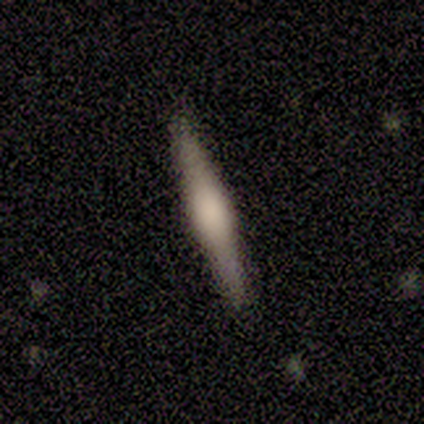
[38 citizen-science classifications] Overall: featured or disk (58%; smooth 37%). Edge-on disk: yes (100%). Edge-on bulge: rounded (64%; boxy 36%). Merging: none (89%).